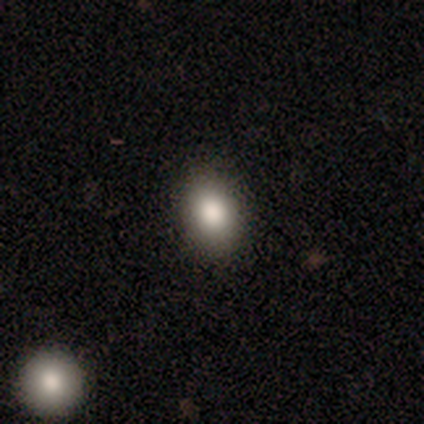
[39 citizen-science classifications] Smooth or featured? smooth (72%)
How rounded? in between (71%)
Merging? none (77%)